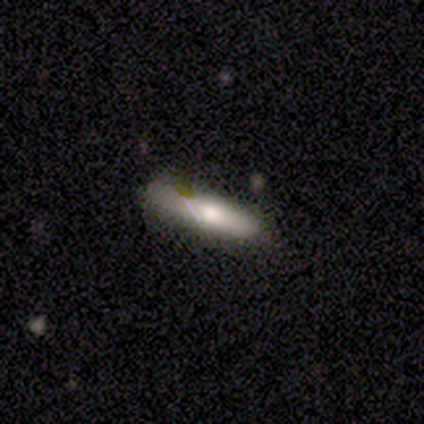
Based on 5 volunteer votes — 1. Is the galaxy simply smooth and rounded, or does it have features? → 40% smooth (tied), 40% featured or disk (tied), 20% star or artifact.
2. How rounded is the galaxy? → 50% in between (tied), 50% cigar-shaped (tied), 0% round.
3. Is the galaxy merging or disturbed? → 75% none, 25% minor disturbance, 0% major disturbance, 0% merger.